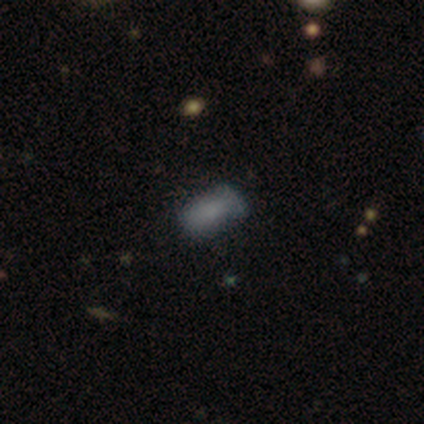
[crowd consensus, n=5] Q: Smooth or featured?
A: smooth (100%)
Q: How rounded?
A: in between (100%)
Q: Merging?
A: none (60%); runner-up: minor disturbance (40%)